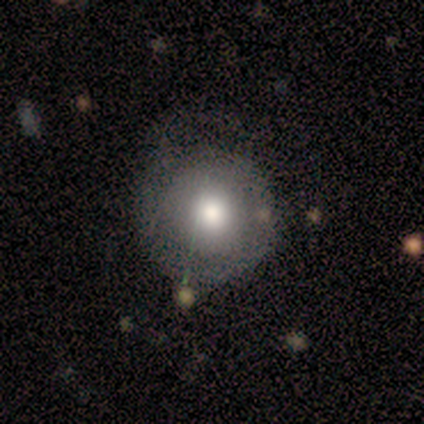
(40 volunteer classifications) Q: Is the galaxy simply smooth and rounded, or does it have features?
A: smooth — 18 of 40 (45%).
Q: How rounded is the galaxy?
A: round — 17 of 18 (94%).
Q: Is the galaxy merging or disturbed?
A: none — 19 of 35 (54%).